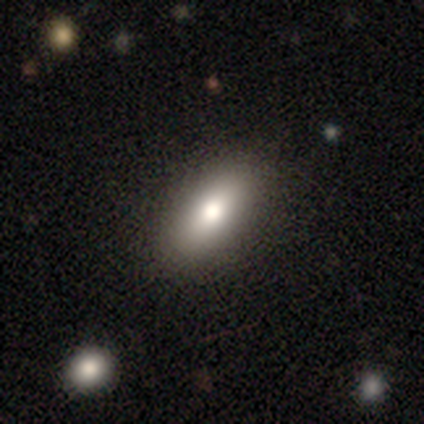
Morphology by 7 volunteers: smooth-or-featured: smooth: 71% | featured or disk: 29% | star or artifact: 0%
  how-rounded: in between: 100% | round: 0% | cigar-shaped: 0%
  merging: none: 86% | minor disturbance: 14% | major disturbance: 0% | merger: 0%